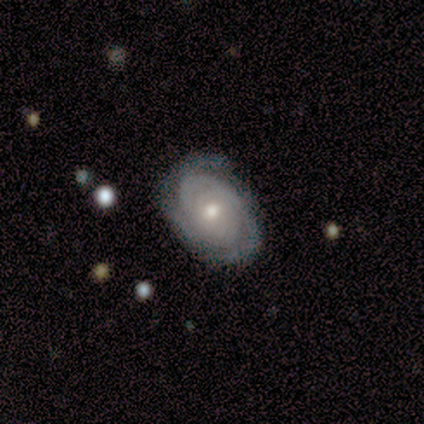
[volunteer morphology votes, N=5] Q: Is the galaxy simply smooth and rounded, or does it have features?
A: featured or disk — 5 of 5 (100%).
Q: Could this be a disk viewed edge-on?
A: no — 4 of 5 (80%).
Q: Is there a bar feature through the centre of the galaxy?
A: no — 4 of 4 (100%).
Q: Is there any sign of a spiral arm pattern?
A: yes — 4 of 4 (100%).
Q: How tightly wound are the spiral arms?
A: tight — 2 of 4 (50%, tied with medium).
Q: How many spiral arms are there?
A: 2 — 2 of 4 (50%).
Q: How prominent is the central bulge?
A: moderate — 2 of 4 (50%, tied with small).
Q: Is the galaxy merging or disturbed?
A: none — 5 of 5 (100%).